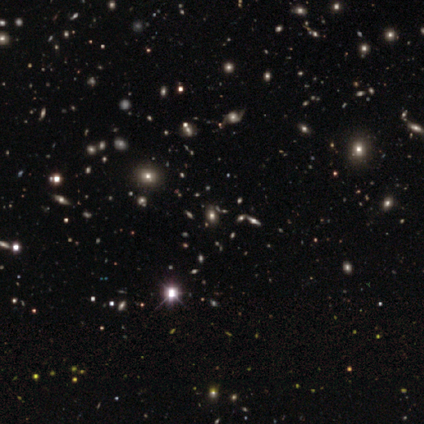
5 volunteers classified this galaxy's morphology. Overall: star or artifact (80%).